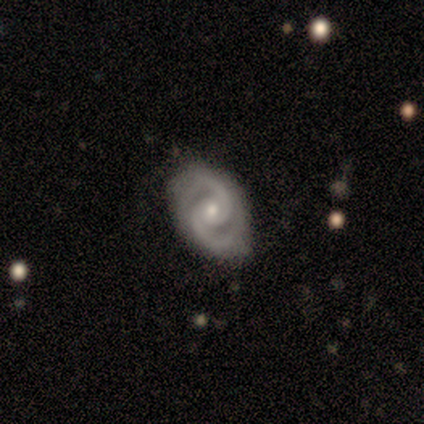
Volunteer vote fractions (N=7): This is clearly a featured or disk galaxy (100%). It is clearly not viewed edge-on (86%). Bar: likely no (67%). Spiral arm pattern: clearly yes (100%). Spiral arm count: clearly 2 (100%). Spiral winding: possibly tight (50%). Central bulge: likely small (67%). Merging: likely none (71%).